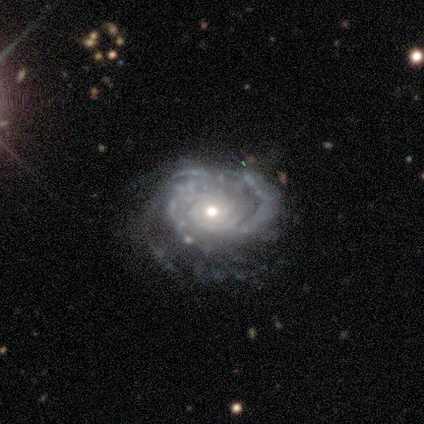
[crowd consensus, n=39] smooth_or_featured: featured or disk (p=0.92) [alt: star or artifact p=0.05]
disk_edge_on: no (p=0.97) [alt: yes p=0.03]
bar: no (p=0.77) [alt: weak p=0.17]
has_spiral_arms: yes (p=0.97) [alt: no p=0.03]
spiral_winding: tight (p=0.88) [alt: medium p=0.06]
spiral_arm_count: more than 4 (p=0.29) [alt: can't tell p=0.26]
bulge_size: moderate (p=0.49) [tied with: small p=0.49]
merging: none (p=0.59) [alt: minor disturbance p=0.27]